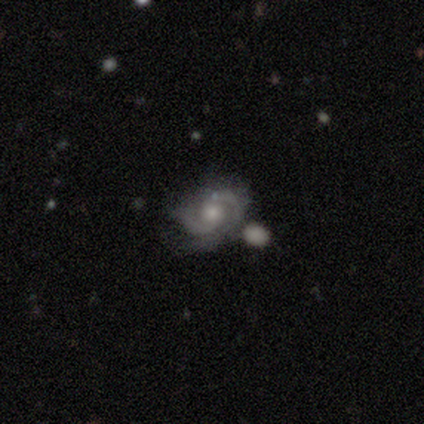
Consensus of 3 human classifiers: featured or disk 67%, smooth 33%, star or artifact 0%. Down the decision tree: edge-on disk — no (100%); bar — strong (50%, tied with weak); spiral arms — yes (100%); spiral arm count — 2 (100%); spiral winding — medium (50%, tied with loose); bulge size — large (50%, tied with moderate); merging — minor disturbance (67%).